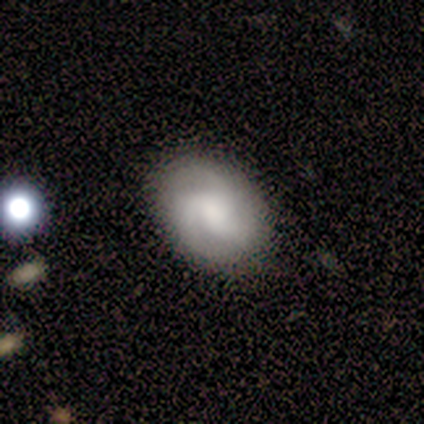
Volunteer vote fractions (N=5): smooth-or-featured: featured or disk: 60% | smooth: 20% | star or artifact: 20%
  disk-edge-on: no: 100% | yes: 0%
    bar: no: 100% | strong: 0% | weak: 0%
    has-spiral-arms: yes: 67% | no: 33%
      spiral-winding: tight: 100% | medium: 0% | loose: 0%
      spiral-arm-count: 3: 100% | 1: 0% | 2: 0% | 4: 0% | more than 4: 0% | can't tell: 0%
    bulge-size: large: 33% (tied) | moderate: 33% (tied) | none: 33% (tied) | dominant: 0% | small: 0%
  merging: none: 100% | minor disturbance: 0% | major disturbance: 0% | merger: 0%